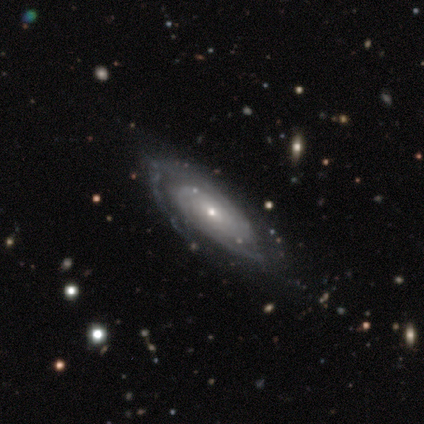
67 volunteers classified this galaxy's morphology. This appears to be a featured or disk galaxy (87%) with no bar (90%), 2 (54%) tight (85%) spiral arms (92%) and a small central bulge (76%). Merging: none (51%).